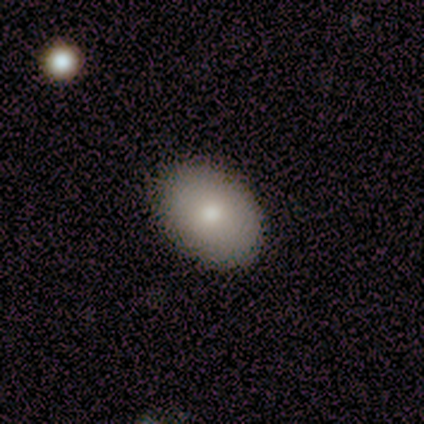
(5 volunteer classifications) This appears to be a smooth galaxy with no disk features (100%) that is in between round and cigar-shaped (60%). Merging: none (100%).